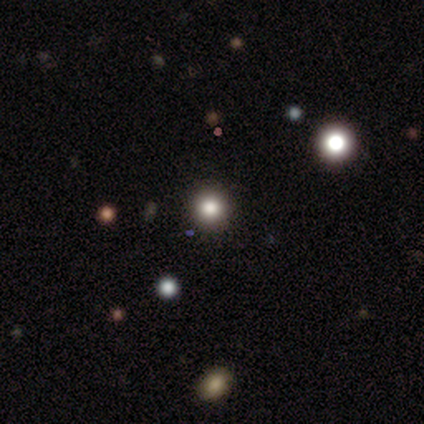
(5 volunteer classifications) Morphology: type=smooth (80%); roundness=round (100%); merging=none (100%).